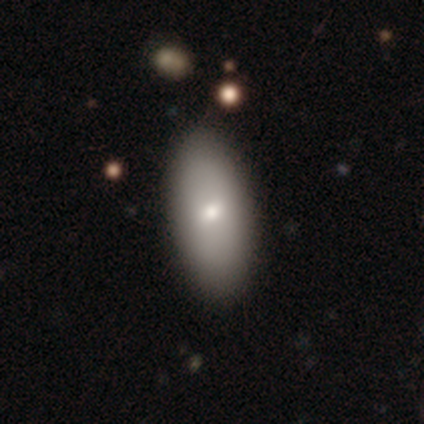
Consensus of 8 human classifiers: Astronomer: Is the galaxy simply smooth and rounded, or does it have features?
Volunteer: smooth — 62%.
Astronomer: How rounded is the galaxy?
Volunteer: in between — 100%.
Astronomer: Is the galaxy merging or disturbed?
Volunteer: none — 100%.